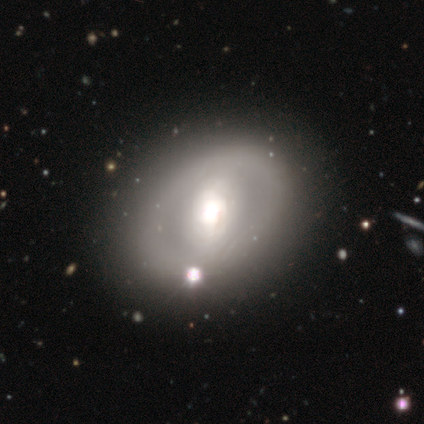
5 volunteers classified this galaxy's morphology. This appears to be a featured or disk galaxy (60%) with a weak bar (67%), no spiral arms (67%) and a large central bulge (100%). Merging: none (50%, tied with minor disturbance).